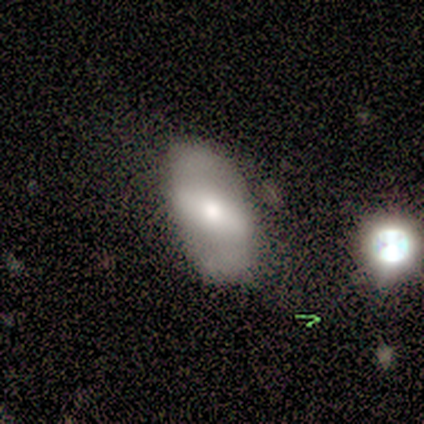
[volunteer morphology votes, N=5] This is likely a smooth galaxy (60%). How rounded: clearly in between (100%). Merging: clearly none (80%).